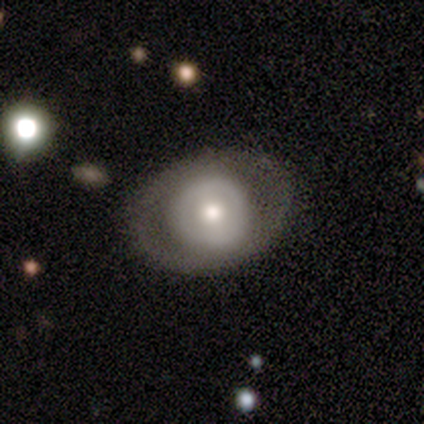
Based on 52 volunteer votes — Volunteers were most divided on "smooth or featured": featured or disk: 58%, smooth: 40%, star or artifact: 2%. More confident: edge-on disk — no (100%); spiral arms — no (83%); merging — none (78%); bar — no (70%); bulge size — moderate (53%).